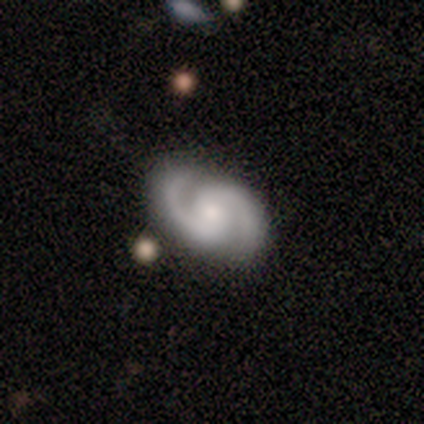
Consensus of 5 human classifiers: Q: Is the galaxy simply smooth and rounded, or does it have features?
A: featured or disk — 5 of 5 (100%).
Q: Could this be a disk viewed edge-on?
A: no — 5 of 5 (100%).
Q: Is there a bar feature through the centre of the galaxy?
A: weak — 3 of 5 (60%).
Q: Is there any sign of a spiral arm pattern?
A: yes — 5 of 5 (100%).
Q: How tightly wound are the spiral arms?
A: tight — 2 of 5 (40%, tied with medium).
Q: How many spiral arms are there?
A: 2 — 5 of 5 (100%).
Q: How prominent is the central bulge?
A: small — 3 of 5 (60%).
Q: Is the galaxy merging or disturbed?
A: none — 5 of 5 (100%).